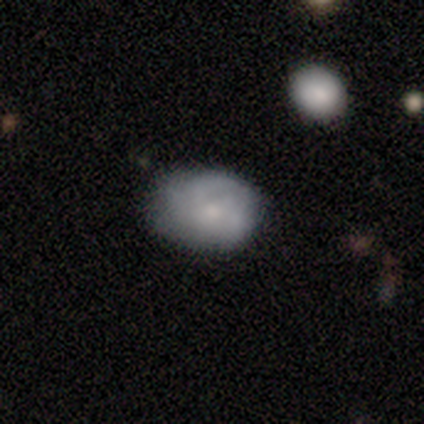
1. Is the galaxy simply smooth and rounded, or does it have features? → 100% smooth, 0% featured or disk, 0% star or artifact.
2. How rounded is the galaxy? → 60% round, 40% in between, 0% cigar-shaped.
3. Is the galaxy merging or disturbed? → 40% none, 20% minor disturbance, 20% major disturbance, 20% merger.